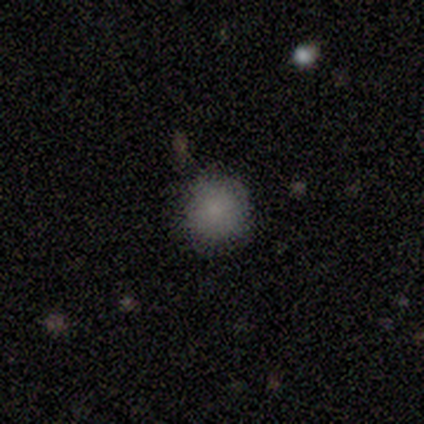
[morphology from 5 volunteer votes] Overall: smooth (80%). How rounded: round (75%). Merging: none (50%, tied with minor disturbance).